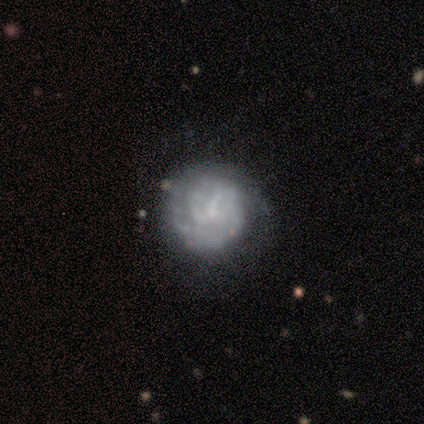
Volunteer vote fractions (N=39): featured or disk 59%, smooth 36%, star or artifact 5%. Down the decision tree: edge-on disk — no (100%); bar — no (74%); spiral arms — yes (65%); spiral arm count — can't tell (40%); spiral winding — tight (87%); bulge size — small (70%); merging — none (73%).